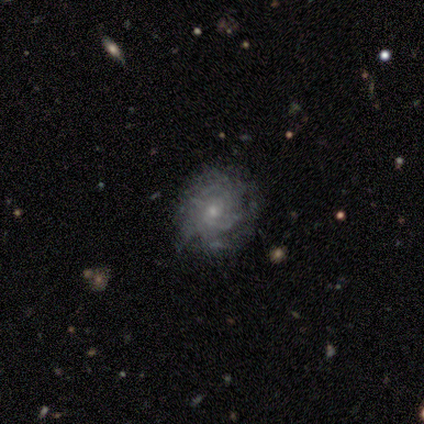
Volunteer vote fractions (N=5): smooth-or-featured: featured or disk: 100% | smooth: 0% | star or artifact: 0%
  disk-edge-on: no: 100% | yes: 0%
    bar: no: 80% | weak: 20% | strong: 0%
    has-spiral-arms: yes: 100% | no: 0%
      spiral-winding: tight: 100% | medium: 0% | loose: 0%
      spiral-arm-count: 2: 40% (tied) | 3: 40% (tied) | can't tell: 20% | 1: 0% | 4: 0% | more than 4: 0%
    bulge-size: small: 60% | moderate: 40% | dominant: 0% | large: 0% | none: 0%
  merging: none: 100% | minor disturbance: 0% | major disturbance: 0% | merger: 0%